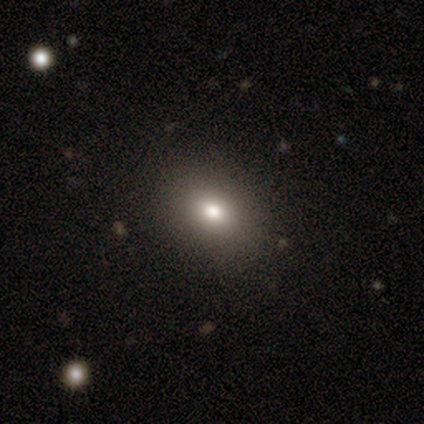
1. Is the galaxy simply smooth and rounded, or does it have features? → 74% smooth, 17% star or artifact, 8% featured or disk.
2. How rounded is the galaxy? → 66% in between, 33% round, 2% cigar-shaped.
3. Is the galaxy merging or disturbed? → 93% none, 6% minor disturbance, 1% major disturbance, 0% merger.